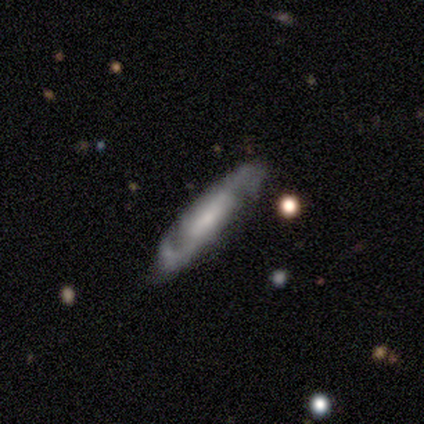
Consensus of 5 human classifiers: Smooth or featured: featured or disk — 80% (smooth — 20%)
Edge-on disk: no — 75% (yes — 25%)
Bar: no — 100%
Spiral arms: yes — 100%
Spiral winding: medium — 67% (loose — 33%)
Spiral arm count: 2 — 67% (can't tell — 33%)
Bulge size: none — 67% (large — 33%)
Merging: none — 80% (minor disturbance — 20%)